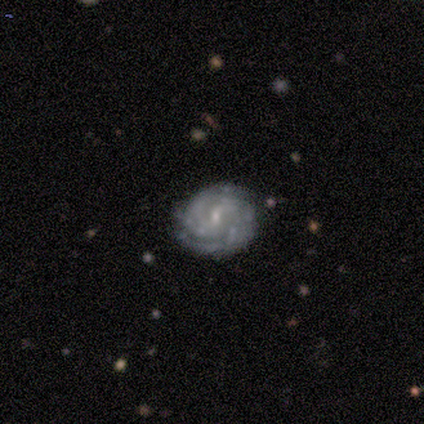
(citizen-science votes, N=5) Volunteers were most divided on "spiral arm count": 2: 40%, 3: 20%, 4: 20%, can't tell: 20%, 1: 0%, more than 4: 0%. More confident: smooth or featured — featured or disk (100%); edge-on disk — no (100%); spiral arms — yes (100%); bulge size — small (100%); merging — none (100%); bar — weak (80%); spiral winding — tight (80%).